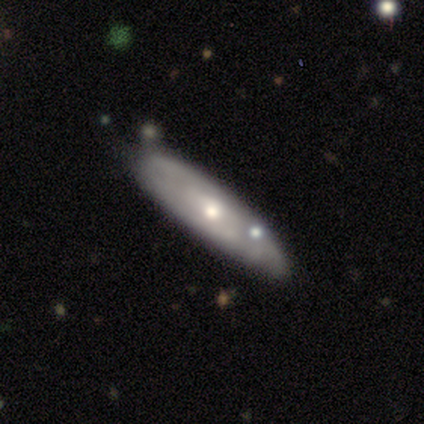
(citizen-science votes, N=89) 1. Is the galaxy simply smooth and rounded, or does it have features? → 66% featured or disk, 31% smooth, 2% star or artifact.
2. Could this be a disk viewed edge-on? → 68% no, 32% yes.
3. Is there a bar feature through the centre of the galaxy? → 92% no, 5% weak, 2% strong.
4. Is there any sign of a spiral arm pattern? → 70% no, 30% yes.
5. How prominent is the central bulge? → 57% moderate, 35% small, 8% large, 0% dominant, 0% none.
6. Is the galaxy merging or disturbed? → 72% none, 21% minor disturbance, 6% merger, 1% major disturbance.